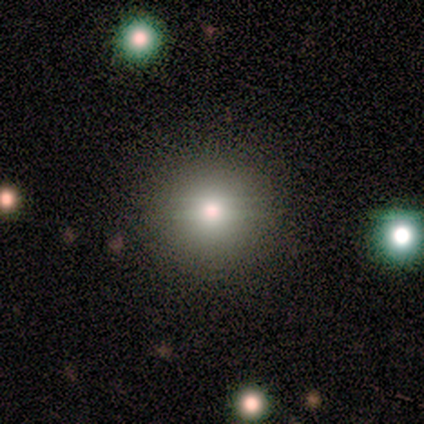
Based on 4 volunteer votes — smooth-or-featured: smooth: 75% | featured or disk: 25% | star or artifact: 0%
  how-rounded: round: 100% | in between: 0% | cigar-shaped: 0%
  merging: none: 100% | minor disturbance: 0% | major disturbance: 0% | merger: 0%